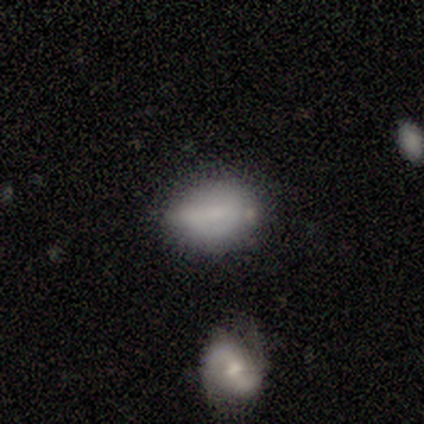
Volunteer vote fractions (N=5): This appears to be a smooth galaxy with no disk features (80%) that is in between round and cigar-shaped (100%). Merging: minor disturbance (60%).